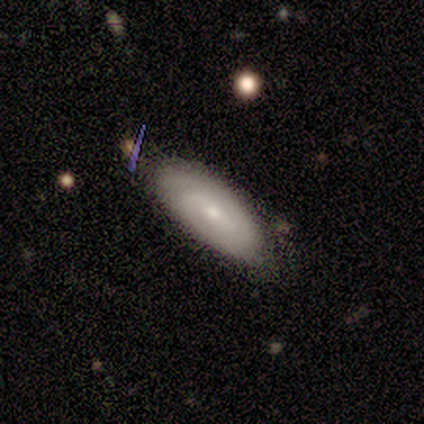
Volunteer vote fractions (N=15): Smooth or featured? featured or disk (53%)
Edge-on disk? no (88%)
Bar? weak (43%)
Spiral arms? yes (100%)
Spiral winding? medium (57%)
Spiral arm count? 2 (71%)
Bulge size? small (86%)
Merging? none (87%)